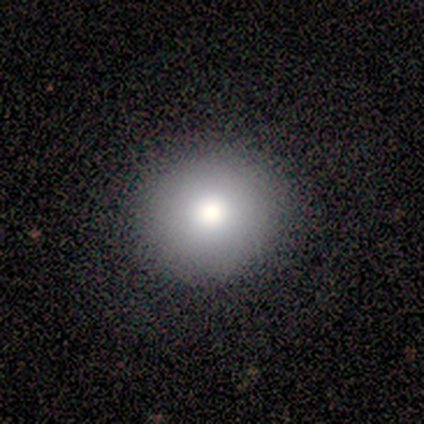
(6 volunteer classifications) This is clearly a smooth galaxy (100%). How rounded: clearly round (100%). Merging: clearly none (100%).